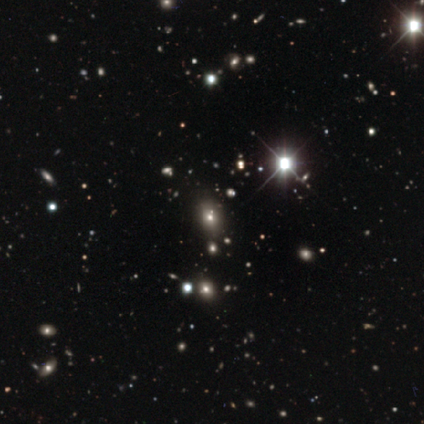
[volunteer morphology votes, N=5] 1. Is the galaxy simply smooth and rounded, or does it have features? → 100% star or artifact, 0% smooth, 0% featured or disk.